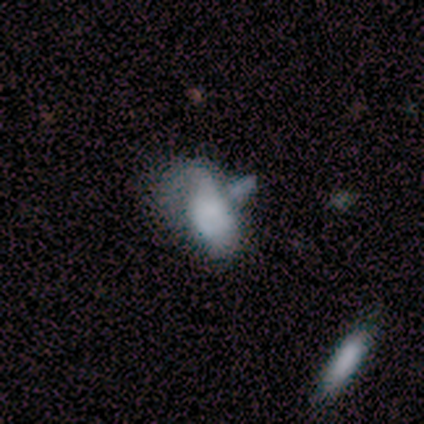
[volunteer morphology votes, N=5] Smooth or featured? smooth (60%)
How rounded? in between (100%)
Merging? minor disturbance (40%)